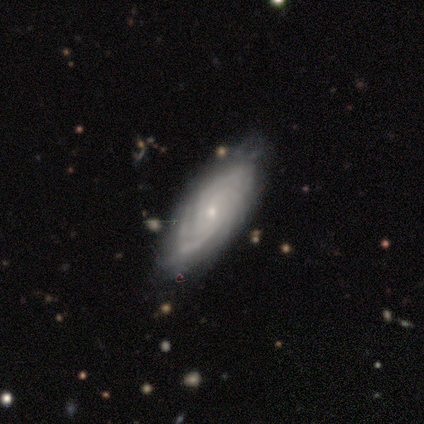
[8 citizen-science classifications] Smooth or featured?
  - featured or disk: 62% *
  - star or artifact: 25%
  - smooth: 12%
Edge-on disk?
  - no: 100% *
  - yes: 0%
Bar?
  - weak: 60% *
  - no: 40%
  - strong: 0%
Spiral arms?
  - yes: 100% *
  - no: 0%
Spiral winding?
  - tight: 80% *
  - medium: 20%
  - loose: 0%
Spiral arm count?
  - can't tell: 60% *
  - 4: 20%
  - more than 4: 20%
  - 1: 0%
  - 2: 0%
  - 3: 0%
Bulge size?
  - small: 80% *
  - moderate: 20%
  - dominant: 0%
  - large: 0%
  - none: 0%
Merging?
  - none: 83% *
  - minor disturbance: 17%
  - major disturbance: 0%
  - merger: 0%